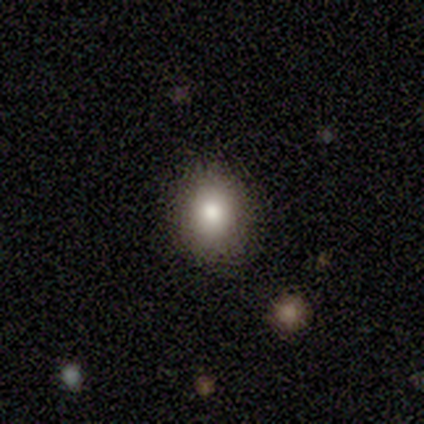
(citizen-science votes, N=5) Smooth or featured? 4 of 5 (80%) said smooth. How rounded? 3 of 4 (75%) said in between. Merging? 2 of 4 (50%, tied with minor disturbance) said none.